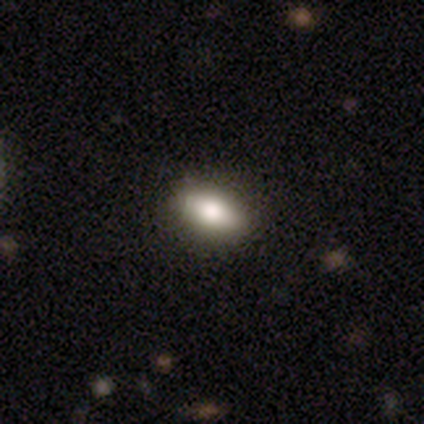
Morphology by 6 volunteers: Volunteers were most divided on "how rounded": in between: 67%, cigar-shaped: 33%, round: 0%. More confident: smooth or featured — smooth (100%); merging — none (83%).